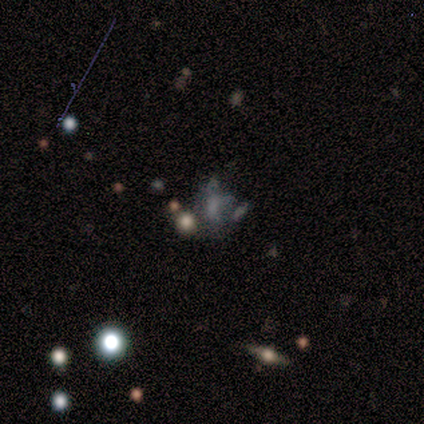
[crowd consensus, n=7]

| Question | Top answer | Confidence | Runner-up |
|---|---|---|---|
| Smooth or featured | star or artifact | 43% | smooth (29%) |